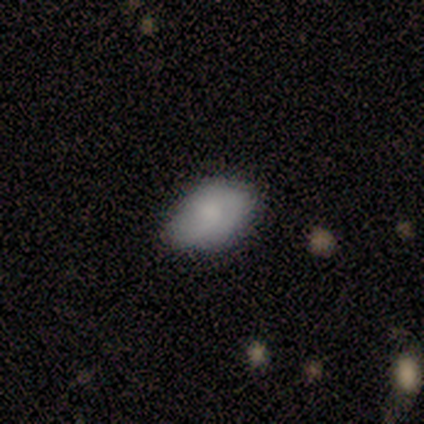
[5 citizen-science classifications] A smooth galaxy with no disk features (100%) that is in between round and cigar-shaped (100%).

Vote fractions:
- Smooth or featured? smooth: 100% / featured or disk: 0% / star or artifact: 0%
- How rounded? in between: 100% / round: 0% / cigar-shaped: 0%
- Merging? none: 80% / minor disturbance: 20% / major disturbance: 0% / merger: 0%